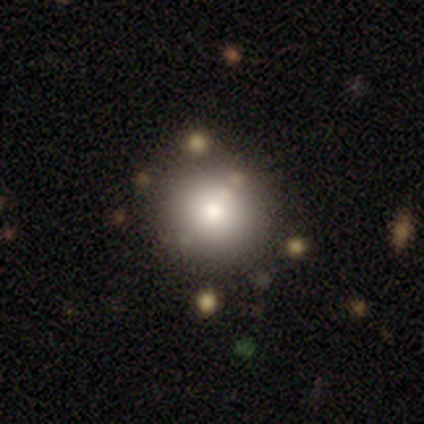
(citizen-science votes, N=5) A smooth galaxy with no disk features (60%) that is round (100%). Merging: none (80%).